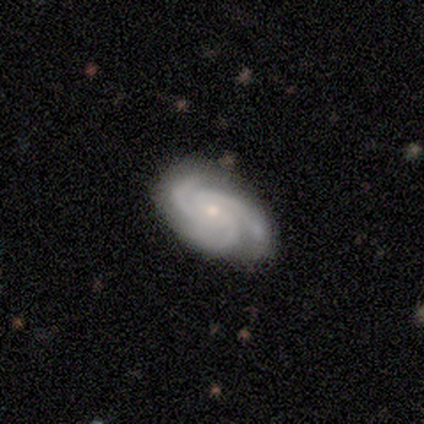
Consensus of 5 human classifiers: Q: Smooth or featured?
A: featured or disk (60%); runner-up: smooth (40%)
Q: Edge-on disk?
A: no (100%)
Q: Bar?
A: no (67%); runner-up: weak (33%)
Q: Spiral arms?
A: yes (100%)
Q: Spiral winding?
A: medium (67%); runner-up: tight (33%)
Q: Spiral arm count?
A: 3 (100%)
Q: Bulge size?
A: small (100%)
Q: Merging?
A: none (60%); runner-up: minor disturbance (40%)